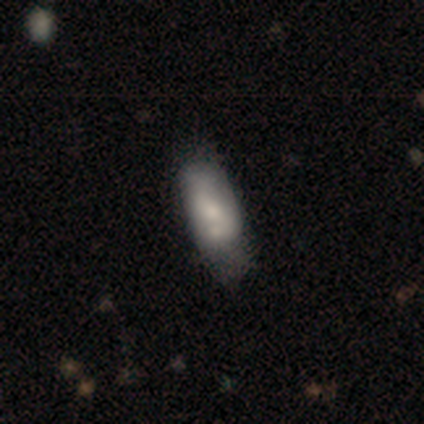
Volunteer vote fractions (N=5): Smooth or featured? featured or disk (80%)
Edge-on disk? no (100%)
Bar? no (100%)
Spiral arms? yes (75%)
Spiral winding? tight (67%)
Spiral arm count? 2 (67%)
Bulge size? moderate (50%, tied with small)
Merging? merger (40%)